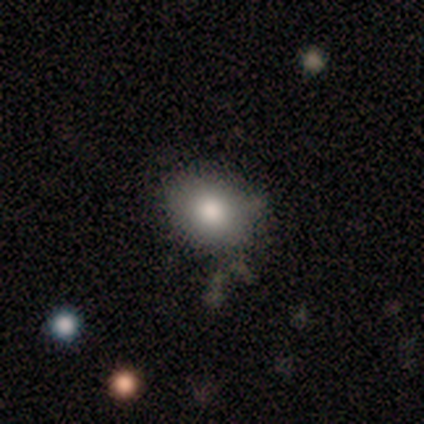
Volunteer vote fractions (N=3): Q: Smooth or featured?
A: smooth (100%)
Q: How rounded?
A: in between (67%); runner-up: round (33%)
Q: Merging?
A: none (67%); runner-up: major disturbance (33%)